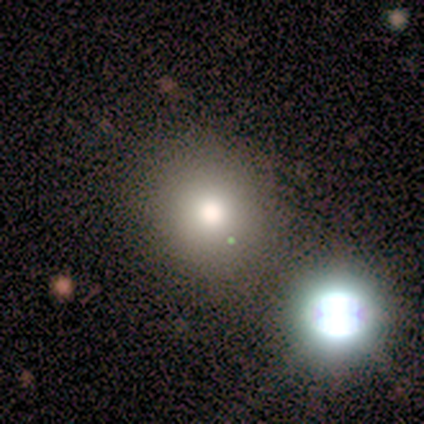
Smooth or featured? smooth (88%)
How rounded? round (100%)
Merging? none (86%)